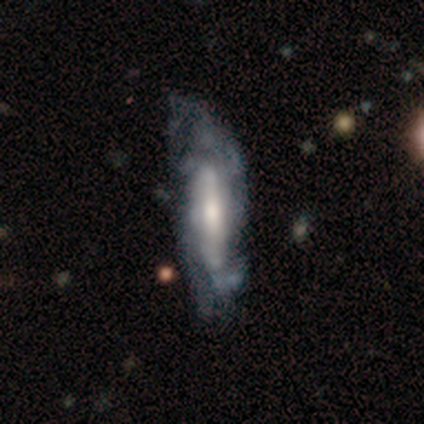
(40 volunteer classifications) smooth-or-featured: featured or disk: 82% | smooth: 15% | star or artifact: 2%
  disk-edge-on: no: 79% | yes: 21%
    bar: strong: 38% | no: 35% | weak: 27%
    has-spiral-arms: yes: 81% | no: 19%
      spiral-winding: medium: 62% | loose: 29% | tight: 10%
      spiral-arm-count: can't tell: 57% | 2: 24% | 4: 14% | 3: 5% | 1: 0% | more than 4: 0%
    bulge-size: moderate: 50% | large: 19% | small: 19% | none: 8% | dominant: 4%
  merging: none: 28% (tied) | minor disturbance: 28% (tied) | major disturbance: 15% | merger: 0%